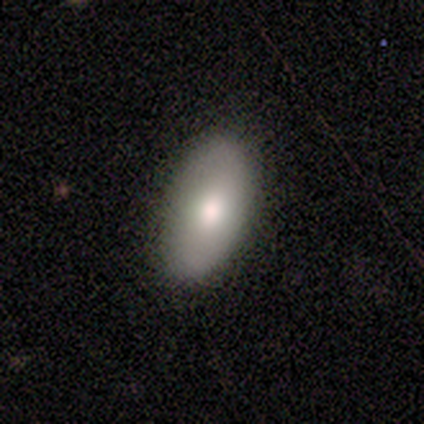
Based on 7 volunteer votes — A smooth galaxy with no disk features (71%) that is in between round and cigar-shaped (80%).

Vote fractions:
- Smooth or featured? smooth: 71% / featured or disk: 29% / star or artifact: 0%
- How rounded? in between: 80% / cigar-shaped: 20% / round: 0%
- Merging? none: 100% / minor disturbance: 0% / major disturbance: 0% / merger: 0%